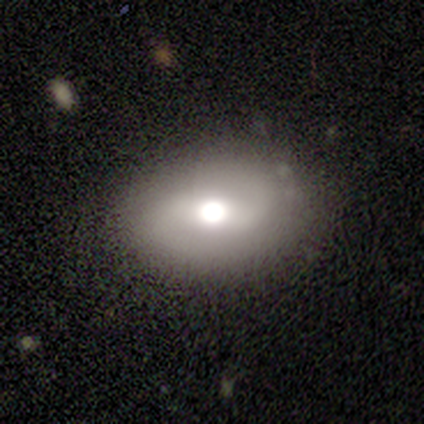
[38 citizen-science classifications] Smooth or featured?
  - smooth: 50% *
  - featured or disk: 45%
  - star or artifact: 5%
How rounded?
  - in between: 74% *
  - round: 21%
  - cigar-shaped: 5%
Merging?
  - none: 83% *
  - merger: 11%
  - minor disturbance: 6%
  - major disturbance: 0%